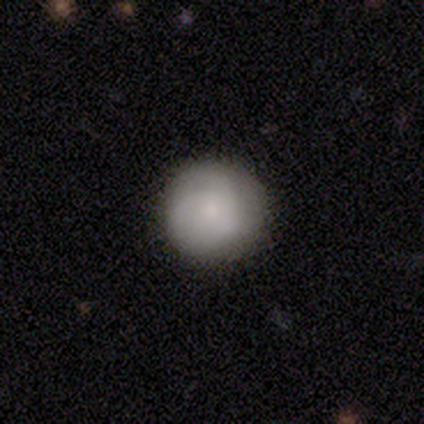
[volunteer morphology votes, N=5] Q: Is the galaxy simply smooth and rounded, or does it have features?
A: smooth — 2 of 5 (40%, tied with featured or disk).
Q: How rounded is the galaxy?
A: round — 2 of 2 (100%).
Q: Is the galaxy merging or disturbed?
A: none — 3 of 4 (75%).